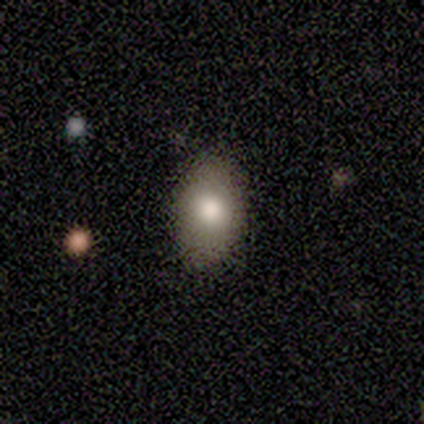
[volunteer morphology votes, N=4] type=smooth (75%); roundness=in between (67%); merging=none (67%).